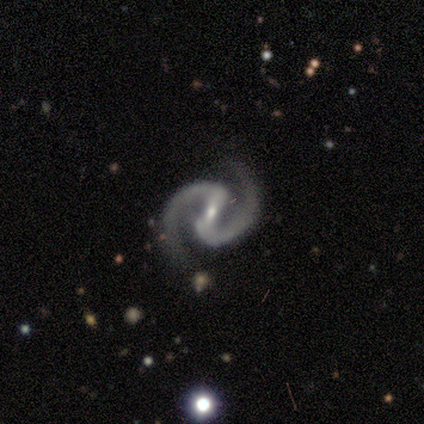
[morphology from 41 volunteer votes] Smooth or featured: featured or disk — 98% (smooth — 2%)
Edge-on disk: no — 98% (yes — 2%)
Bar: strong — 67% (weak — 28%)
Spiral arms: yes — 97% (no — 3%)
Spiral winding: medium — 68% (tight — 21%)
Spiral arm count: 2 — 97% (1 — 3%)
Bulge size: small — 74% (moderate — 26%)
Merging: none — 93% (major disturbance — 7%)